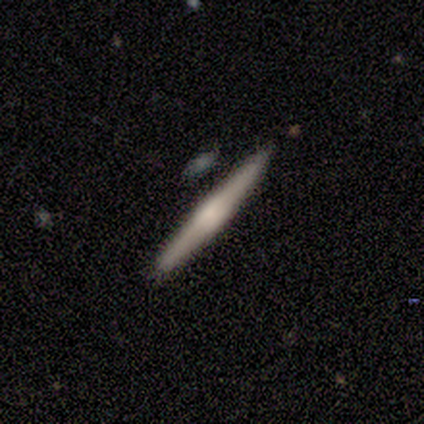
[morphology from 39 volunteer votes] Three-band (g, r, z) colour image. It shows a featured or disk galaxy (56%) viewed edge-on (100%) with a rounded central bulge (55%). Merging: none (97%).